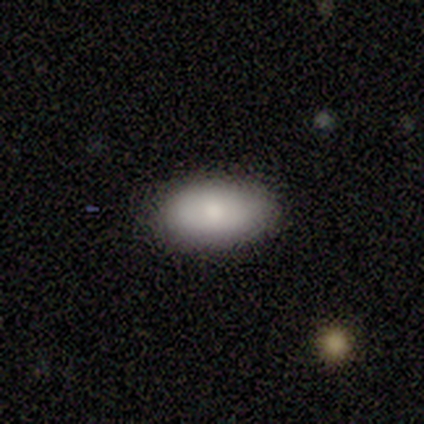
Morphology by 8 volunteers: Smooth or featured: smooth — 62% (featured or disk — 38%)
How rounded: in between — 100%
Merging: none — 88% (minor disturbance — 12%)